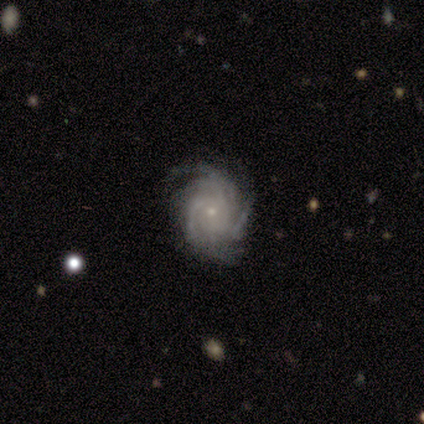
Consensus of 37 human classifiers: Overall: featured or disk (92%). Edge-on disk: no (100%). Bar: no (79%). Spiral arms: yes (100%). Spiral arm count: more than 4 (26%, tied with can't tell). Spiral winding: tight (74%). Bulge size: small (94%). Merging: none (83%).